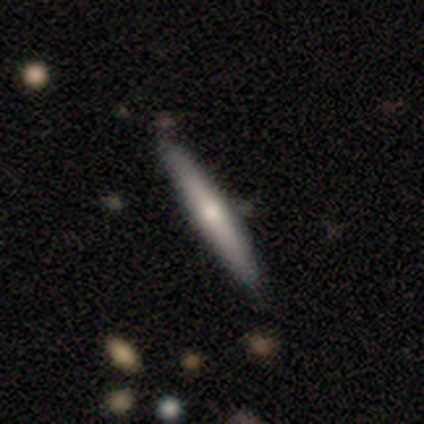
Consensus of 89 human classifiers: This is possibly a featured or disk galaxy (48%). It is clearly viewed edge-on (100%). Edge-on bulge: likely rounded (77%). Merging: clearly none (89%).